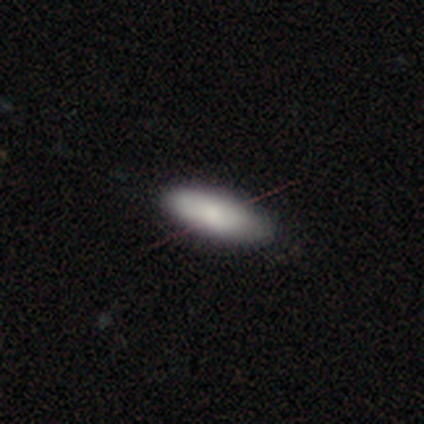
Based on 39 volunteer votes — Volunteers were most divided on "smooth or featured": smooth: 64%, featured or disk: 18%, star or artifact: 18%. More confident: merging — none (88%); how rounded — in between (80%).